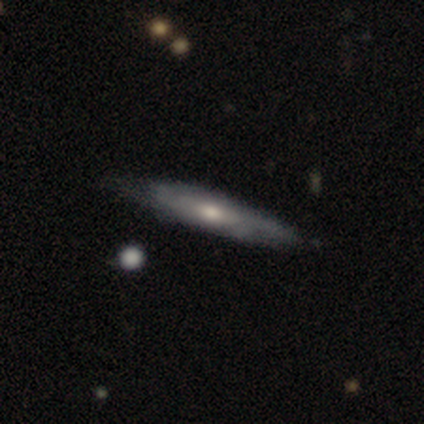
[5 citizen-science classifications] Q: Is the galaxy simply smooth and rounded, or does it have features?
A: featured or disk — 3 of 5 (60%).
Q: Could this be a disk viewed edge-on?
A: yes — 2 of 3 (67%).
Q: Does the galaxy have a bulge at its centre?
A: none — 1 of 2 (50%, tied with rounded).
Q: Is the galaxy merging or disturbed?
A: none — 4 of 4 (100%).